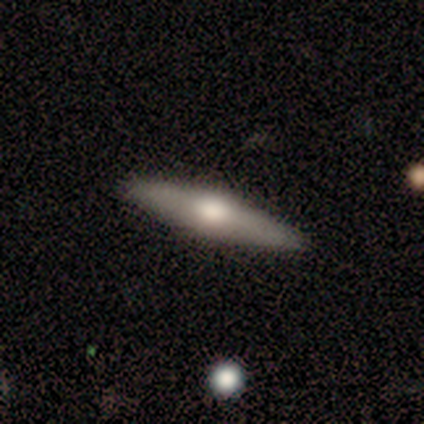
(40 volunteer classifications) A featured or disk galaxy (72%) viewed edge-on (100%) with a rounded central bulge (97%).

Vote fractions:
- Smooth or featured? featured or disk: 72% / smooth: 25% / star or artifact: 2%
- Edge-on disk? yes: 100% / no: 0%
- Edge-on bulge? rounded: 97% / none: 3% / boxy: 0%
- Merging? none: 92% / minor disturbance: 8% / major disturbance: 0% / merger: 0%